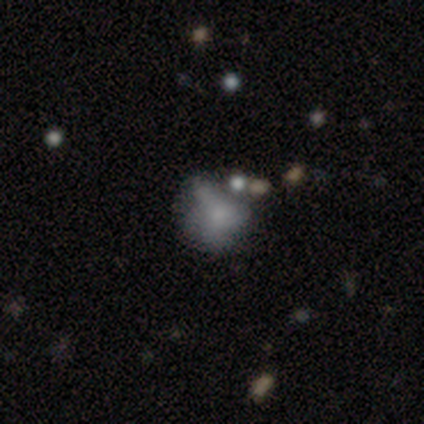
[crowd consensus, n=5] Q: Smooth or featured?
A: featured or disk (40%); tied with: star or artifact (40%)
Q: Edge-on disk?
A: no (100%)
Q: Bar?
A: no (100%)
Q: Spiral arms?
A: no (100%)
Q: Bulge size?
A: none (100%)
Q: Merging?
A: major disturbance (67%); runner-up: minor disturbance (33%)